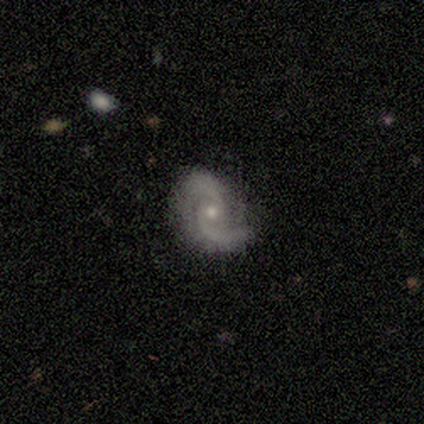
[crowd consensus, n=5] This appears to be a featured or disk galaxy (100%) with no bar (100%), 2 (100%) medium (80%) spiral arms (100%) and a small central bulge (80%). Merging: none (80%).